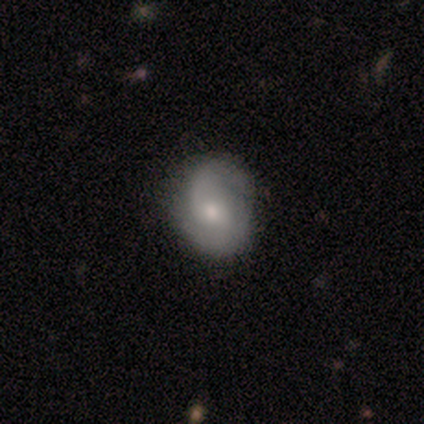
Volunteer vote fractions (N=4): featured or disk 100%, smooth 0%, star or artifact 0%. Down the decision tree: edge-on disk — no (100%); bar — no (50%); spiral arms — yes (100%); spiral arm count — 2 (100%); spiral winding — medium (50%, tied with loose); bulge size — small (75%); merging — none (75%).